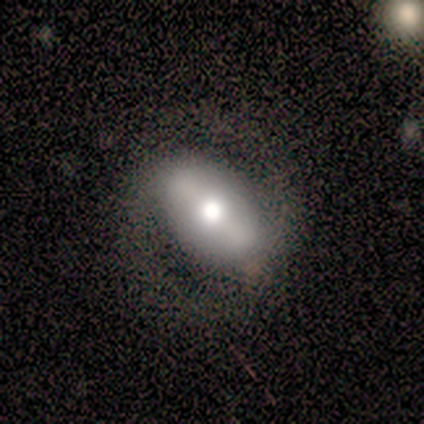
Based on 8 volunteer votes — Overall: featured or disk (62%; smooth 38%). Edge-on disk: no (100%). Bar: strong (60%; weak 40%). Spiral arms: yes (80%). Spiral arm count: 2 (100%). Spiral winding: medium (75%). Bulge size: moderate (80%). Merging: none (100%).